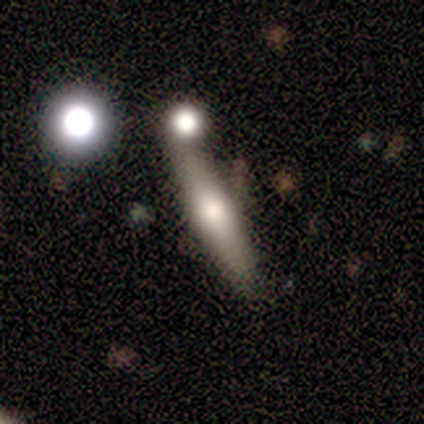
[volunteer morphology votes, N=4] A smooth galaxy with no disk features (50%) that is in between round and cigar-shaped (50%, tied with cigar-shaped).

Vote fractions:
- Smooth or featured? smooth: 50% / featured or disk: 25% / star or artifact: 25%
- How rounded? in between: 50% (tied) / cigar-shaped: 50% (tied) / round: 0%
- Merging? none: 100% / minor disturbance: 0% / major disturbance: 0% / merger: 0%